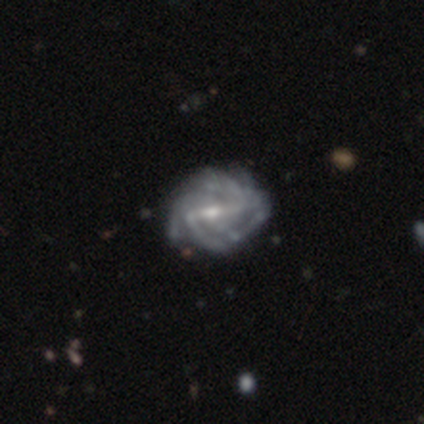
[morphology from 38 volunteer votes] smooth-or-featured: featured or disk: 95% | star or artifact: 5% | smooth: 0%
  disk-edge-on: no: 100% | yes: 0%
    bar: strong: 64% | weak: 31% | no: 6%
    has-spiral-arms: yes: 97% | no: 3%
      spiral-winding: tight: 63% | medium: 29% | loose: 9%
      spiral-arm-count: 2: 34% | can't tell: 23% | 3: 17% | 4: 17% | more than 4: 9% | 1: 0%
    bulge-size: moderate: 50% | small: 47% | none: 3% | dominant: 0% | large: 0%
  merging: none: 44% | minor disturbance: 22% | major disturbance: 6% | merger: 3%